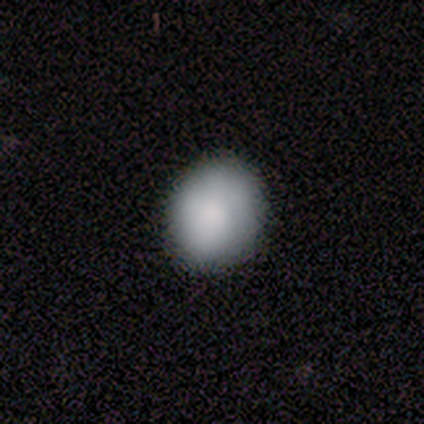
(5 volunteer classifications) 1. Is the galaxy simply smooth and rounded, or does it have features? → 80% smooth, 20% featured or disk, 0% star or artifact.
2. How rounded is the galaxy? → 75% in between, 25% round, 0% cigar-shaped.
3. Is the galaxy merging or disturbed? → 80% none, 20% minor disturbance, 0% major disturbance, 0% merger.